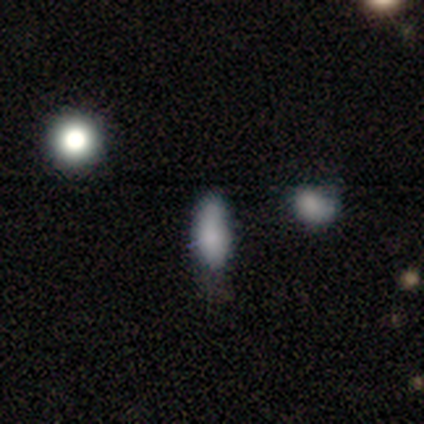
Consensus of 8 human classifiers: Smooth or featured? smooth (88%)
How rounded? in between (86%)
Merging? none (62%)